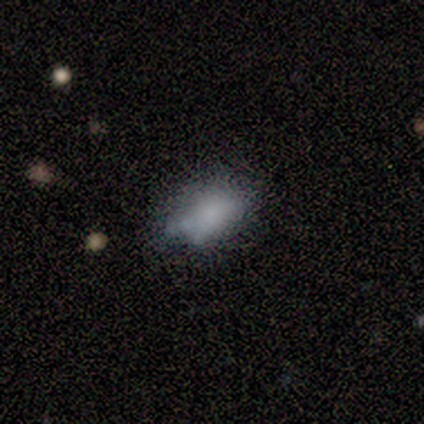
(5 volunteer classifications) smooth_or_featured: smooth (p=0.80) [alt: star or artifact p=0.20]
how_rounded: in between (p=1.00)
merging: none (p=0.75) [alt: minor disturbance p=0.25]